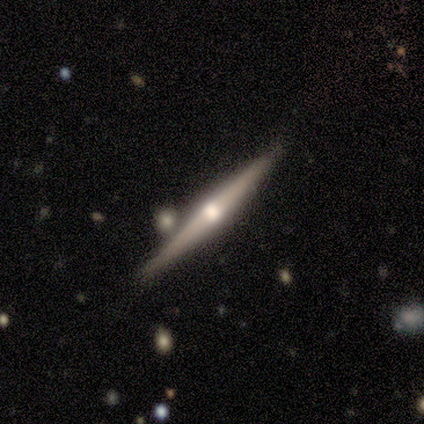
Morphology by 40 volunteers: Smooth or featured? featured or disk (82%)
Edge-on disk? yes (100%)
Edge-on bulge? rounded (88%)
Merging? none (85%)